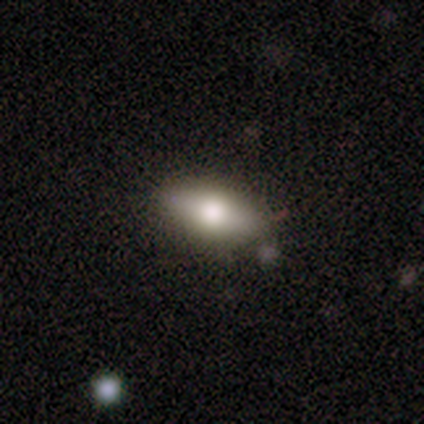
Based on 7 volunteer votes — This is clearly a smooth galaxy (86%). How rounded: clearly in between (83%). Merging: likely none (71%).